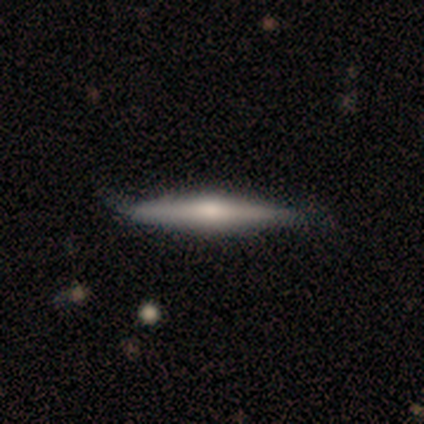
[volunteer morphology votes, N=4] This is likely a featured or disk galaxy (75%). It is clearly viewed edge-on (100%). Edge-on bulge: likely rounded (67%). Merging: clearly none (100%).